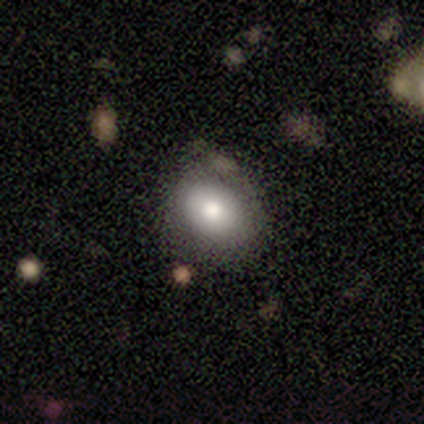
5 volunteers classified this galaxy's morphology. type=smooth (80%); roundness=in between (75%); merging=none (75%).